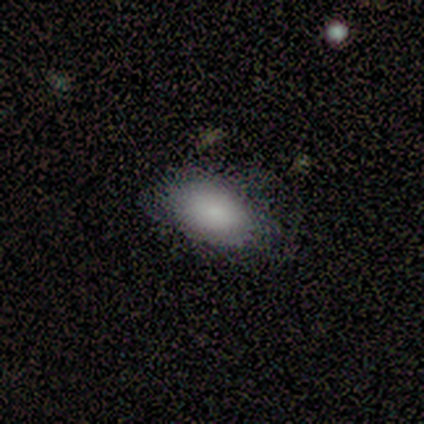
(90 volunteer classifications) Smooth or featured? smooth (82%)
How rounded? in between (95%)
Merging? none (75%)